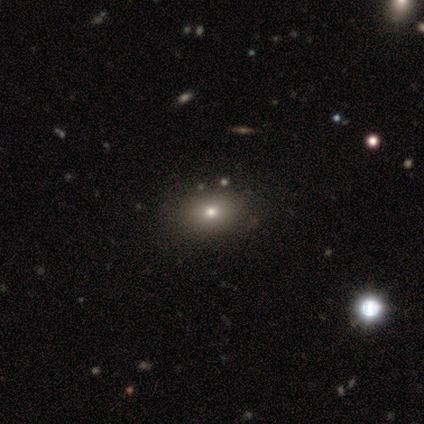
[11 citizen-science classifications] This is likely a smooth galaxy (73%). How rounded: clearly in between (88%). Merging: likely none (75%).